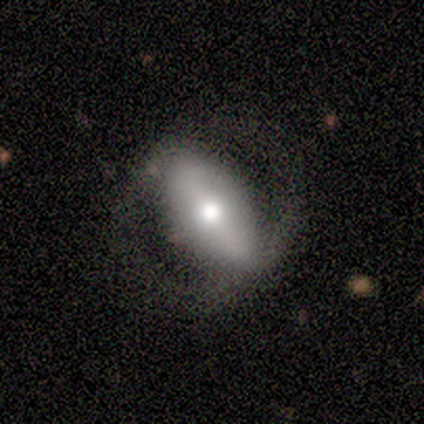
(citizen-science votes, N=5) Smooth or featured? 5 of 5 (100%) said featured or disk. Edge-on disk? 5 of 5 (100%) said no. Bar? 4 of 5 (80%) said strong. Spiral arms? 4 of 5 (80%) said no. Bulge size? 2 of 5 (40%) said large. Merging? 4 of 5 (80%) said none.